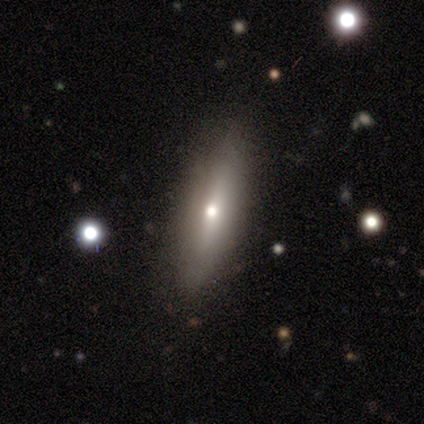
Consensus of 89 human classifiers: This appears to be a smooth galaxy with no disk features (54%) that is cigar-shaped (71%). Merging: none (85%).